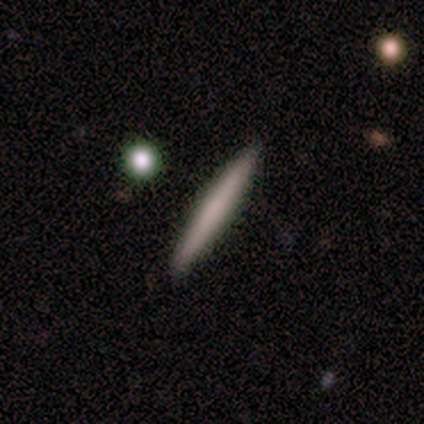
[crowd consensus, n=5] smooth 80%, featured or disk 20%, star or artifact 0%. Down the decision tree: how rounded — cigar-shaped (75%); merging — none (80%).